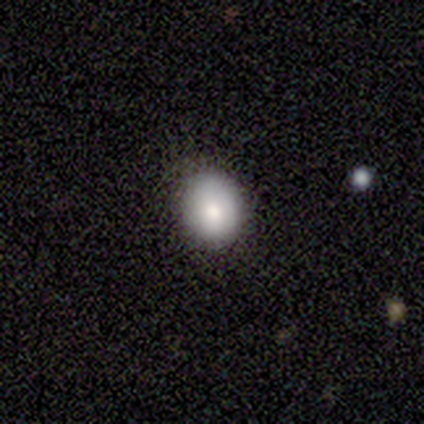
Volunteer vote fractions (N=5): Volunteers were most divided on "smooth or featured": smooth: 60%, featured or disk: 40%, star or artifact: 0%. More confident: how rounded — round (67%); merging — none (60%).